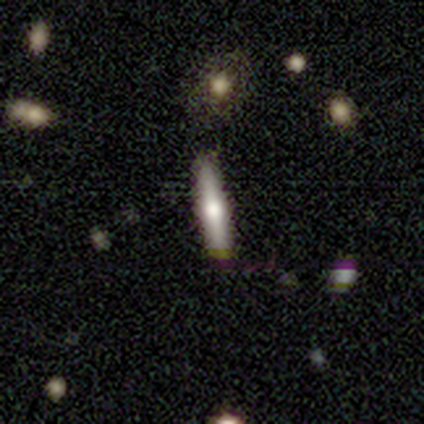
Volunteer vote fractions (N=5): This appears to be a featured or disk galaxy (80%) viewed edge-on (100%) with a rounded central bulge (100%). Merging: none (100%).